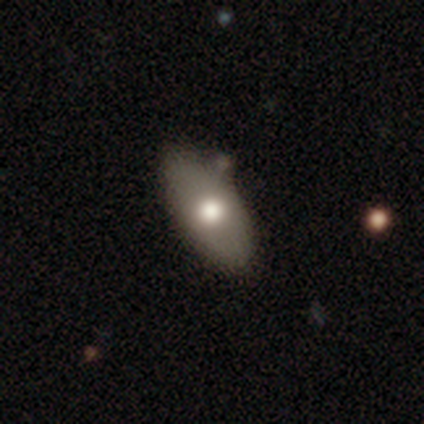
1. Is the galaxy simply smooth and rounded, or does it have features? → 70% smooth, 30% featured or disk, 0% star or artifact.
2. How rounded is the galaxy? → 96% in between, 4% round, 0% cigar-shaped.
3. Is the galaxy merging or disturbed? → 57% none, 15% merger, 10% minor disturbance, 0% major disturbance.